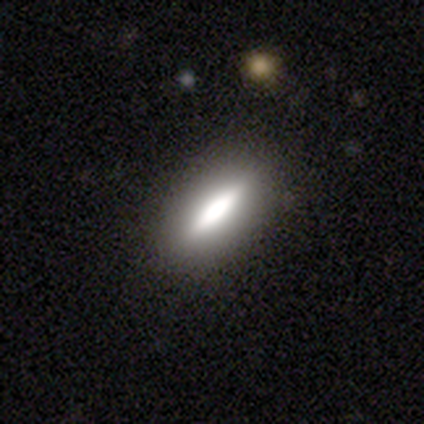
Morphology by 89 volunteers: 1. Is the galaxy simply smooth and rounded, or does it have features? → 52% smooth, 42% featured or disk, 7% star or artifact.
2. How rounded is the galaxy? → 50% cigar-shaped, 48% in between, 2% round.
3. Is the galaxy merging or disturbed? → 92% none, 5% minor disturbance, 2% major disturbance, 1% merger.